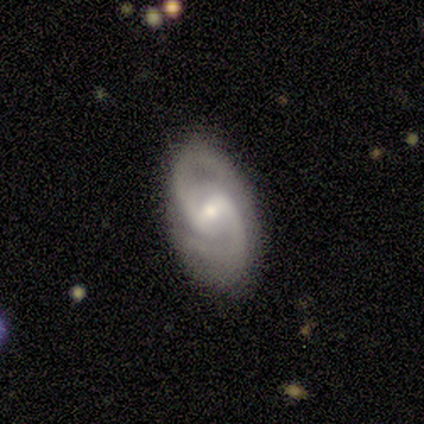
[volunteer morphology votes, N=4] featured or disk 100%, smooth 0%, star or artifact 0%. Down the decision tree: edge-on disk — no (100%); bar — weak (100%); spiral arms — yes (100%); spiral arm count — 2 (100%); spiral winding — medium (50%, tied with loose); bulge size — small (75%); merging — none (75%).